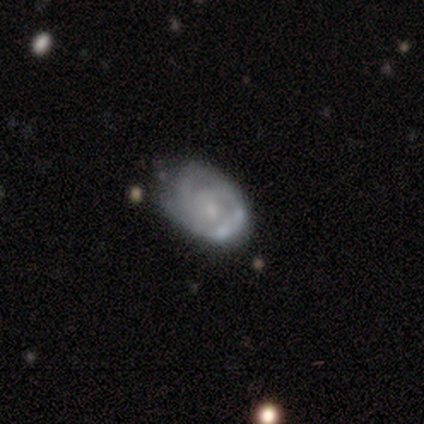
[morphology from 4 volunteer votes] Volunteers were most divided on "spiral arm count" (2-way tie): 2: 50%, 3: 50%, 1: 0%, 4: 0%, more than 4: 0%, can't tell: 0%; "bulge size" (3-way tie): moderate: 33%, small: 33%, none: 33%, dominant: 0%, large: 0%. More confident: edge-on disk — no (100%); spiral winding — tight (100%); smooth or featured — featured or disk (75%); merging — minor disturbance (75%); bar — weak (67%); spiral arms — yes (67%).